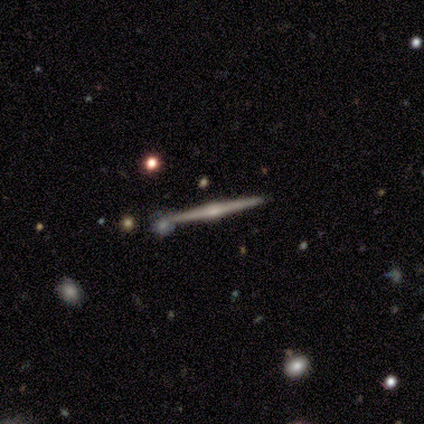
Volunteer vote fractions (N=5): This appears to be a featured or disk galaxy (80%) viewed edge-on (100%) with a rounded central bulge (100%). Merging: none (75%).